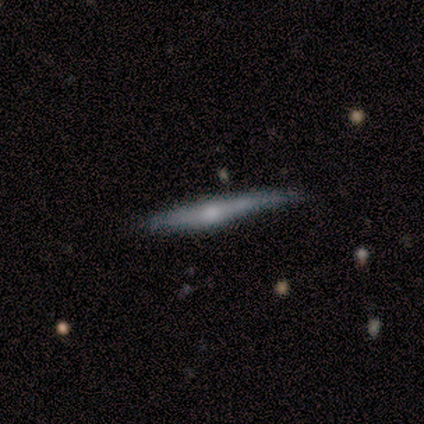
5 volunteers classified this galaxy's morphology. smooth-or-featured: featured or disk: 80% | smooth: 20% | star or artifact: 0%
  disk-edge-on: yes: 75% | no: 25%
    edge-on-bulge: rounded: 100% | boxy: 0% | none: 0%
  merging: none: 60% | minor disturbance: 40% | major disturbance: 0% | merger: 0%